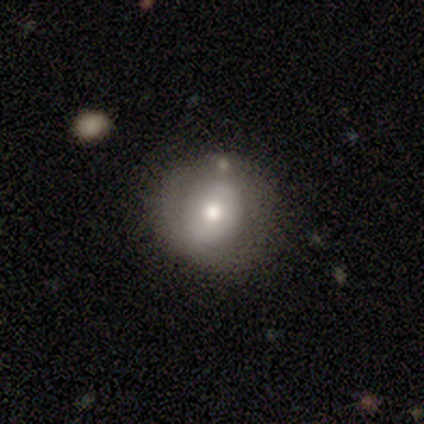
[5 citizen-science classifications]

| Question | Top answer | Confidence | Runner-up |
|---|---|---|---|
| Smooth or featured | smooth | 80% | featured or disk (20%) |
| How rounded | round | 100% | — |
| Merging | none | 60% | minor disturbance (20%) |